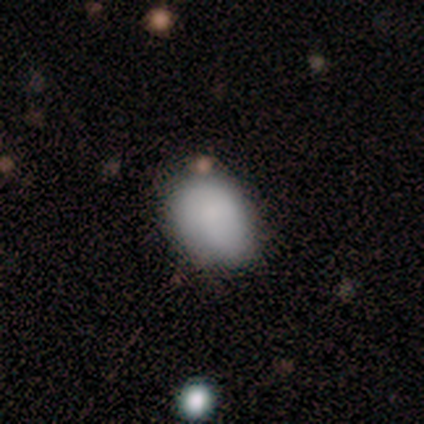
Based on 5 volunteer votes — Volunteers were most divided on "how rounded": in between: 80%, round: 20%, cigar-shaped: 0%. More confident: smooth or featured — smooth (100%); merging — none (80%).